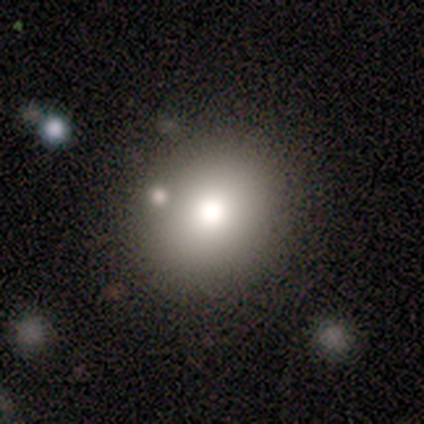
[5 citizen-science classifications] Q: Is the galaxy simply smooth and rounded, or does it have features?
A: smooth — 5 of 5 (100%).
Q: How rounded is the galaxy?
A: round — 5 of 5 (100%).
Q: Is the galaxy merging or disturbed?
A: none — 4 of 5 (80%).